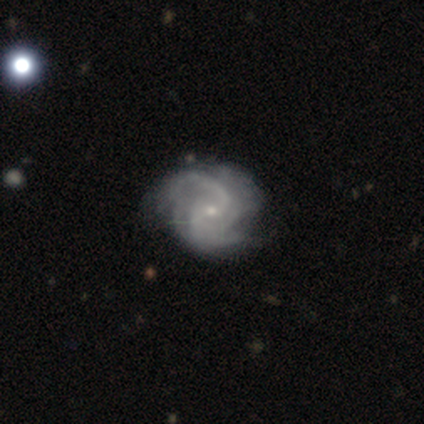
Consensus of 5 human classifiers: Q: Smooth or featured?
A: featured or disk (100%)
Q: Edge-on disk?
A: no (100%)
Q: Bar?
A: no (60%); runner-up: weak (40%)
Q: Spiral arms?
A: yes (100%)
Q: Spiral winding?
A: tight (40%); tied with: medium (40%)
Q: Spiral arm count?
A: 4 (60%); runner-up: 2 (20%)
Q: Bulge size?
A: small (80%); runner-up: none (20%)
Q: Merging?
A: none (60%); runner-up: minor disturbance (20%)